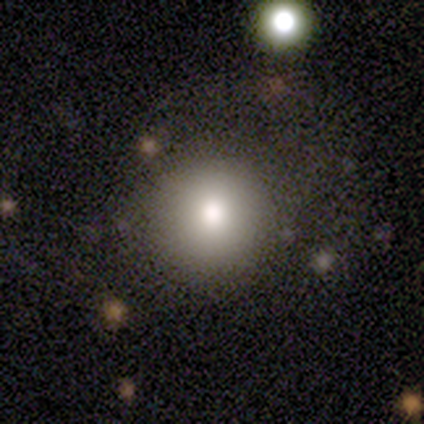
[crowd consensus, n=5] This appears to be a smooth galaxy with no disk features (100%) that is round (100%). Merging: none (60%).